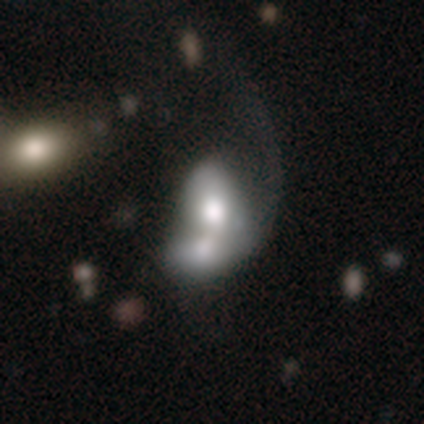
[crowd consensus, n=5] Q: Smooth or featured?
A: featured or disk (60%); runner-up: smooth (40%)
Q: Edge-on disk?
A: no (100%)
Q: Bar?
A: no (67%); runner-up: weak (33%)
Q: Spiral arms?
A: no (67%); runner-up: yes (33%)
Q: Bulge size?
A: moderate (67%); runner-up: large (33%)
Q: Merging?
A: merger (80%); runner-up: major disturbance (20%)